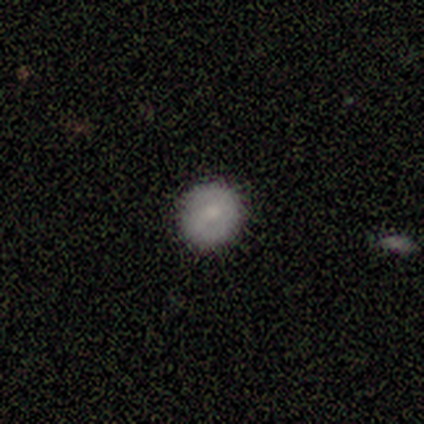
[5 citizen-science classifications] This is likely a smooth galaxy (60%). How rounded: clearly round (100%). Merging: clearly none (100%).